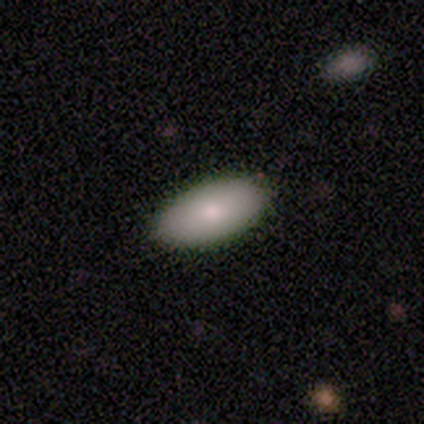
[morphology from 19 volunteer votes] Q: Smooth or featured?
A: smooth (74%); runner-up: featured or disk (26%)
Q: How rounded?
A: in between (100%)
Q: Merging?
A: none (89%); runner-up: major disturbance (11%)